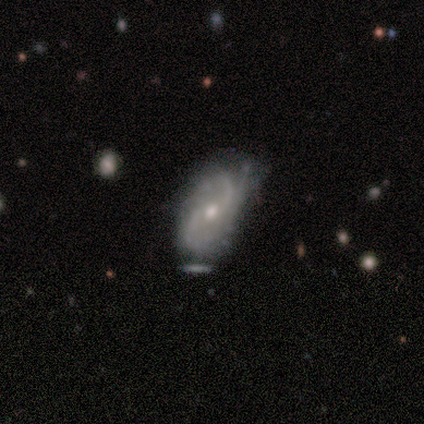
Morphology: type=featured or disk (81%); edge-on=no (100%); bar=no (62%); spiral arms=yes (85%); winding=medium (55%); arm count=2 (64%); bulge=moderate (58%); merging=none (45%).